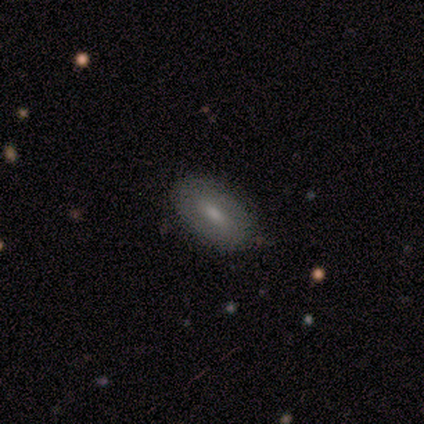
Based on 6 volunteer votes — smooth-or-featured: smooth: 67% | featured or disk: 33% | star or artifact: 0%
  how-rounded: in between: 100% | round: 0% | cigar-shaped: 0%
  merging: none: 100% | minor disturbance: 0% | major disturbance: 0% | merger: 0%